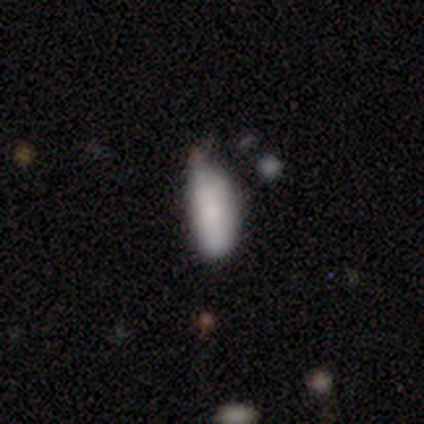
smooth-or-featured: smooth: 80% | featured or disk: 20% | star or artifact: 0%
  how-rounded: in between: 100% | round: 0% | cigar-shaped: 0%
  merging: none: 60% | minor disturbance: 20% | major disturbance: 20% | merger: 0%